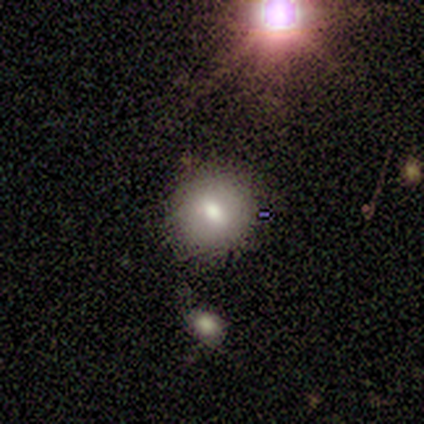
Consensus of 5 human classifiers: Morphology: type=smooth (80%); roundness=round (75%); merging=none (80%).